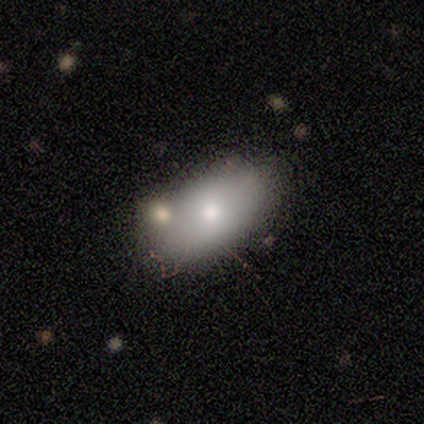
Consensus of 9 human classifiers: Morphology: type=smooth (44%, tied with featured or disk); roundness=in between (100%); merging=none (75%).